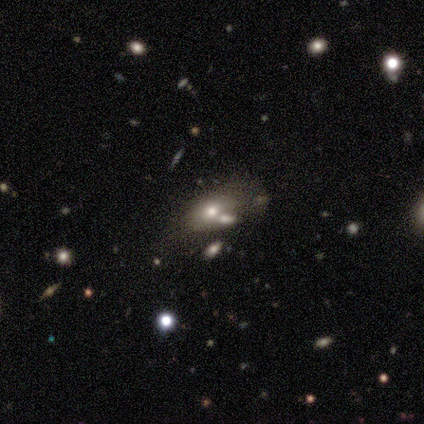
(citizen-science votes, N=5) Volunteers were most divided on "merging": minor disturbance: 50%, none: 25%, major disturbance: 25%, merger: 0%. More confident: how rounded — in between (100%); smooth or featured — smooth (60%).